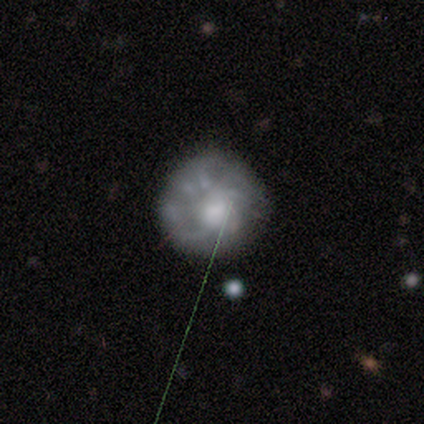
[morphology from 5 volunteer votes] smooth-or-featured: featured or disk: 60% | smooth: 40% | star or artifact: 0%
  disk-edge-on: no: 100% | yes: 0%
    bar: no: 100% | strong: 0% | weak: 0%
    has-spiral-arms: no: 67% | yes: 33%
    bulge-size: large: 33% (tied) | moderate: 33% (tied) | none: 33% (tied) | dominant: 0% | small: 0%
  merging: none: 60% | major disturbance: 40% | minor disturbance: 0% | merger: 0%